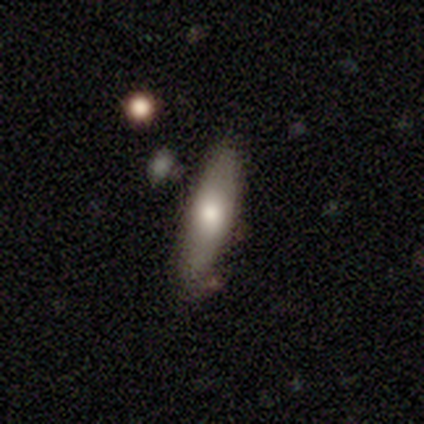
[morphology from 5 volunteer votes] A smooth galaxy with no disk features (60%) that is cigar-shaped (67%). Merging: none (80%).